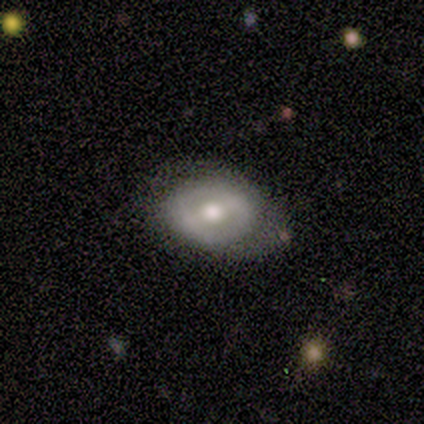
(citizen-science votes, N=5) Volunteers were most divided on "how rounded" (2-way tie): round: 50%, in between: 50%, cigar-shaped: 0%; "merging" (2-way tie): none: 40%, minor disturbance: 40%, major disturbance: 20%, merger: 0%. More confident: smooth or featured — smooth (80%).